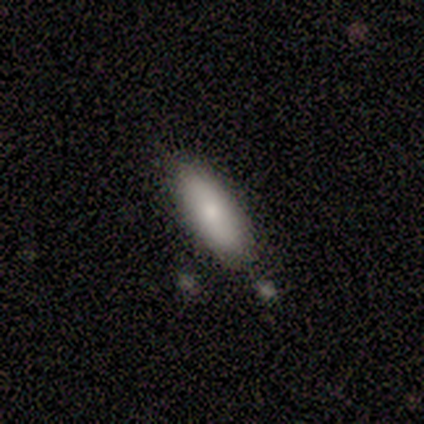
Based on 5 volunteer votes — smooth-or-featured: smooth: 80% | featured or disk: 20% | star or artifact: 0%
  how-rounded: in between: 100% | round: 0% | cigar-shaped: 0%
  merging: none: 80% | minor disturbance: 20% | major disturbance: 0% | merger: 0%